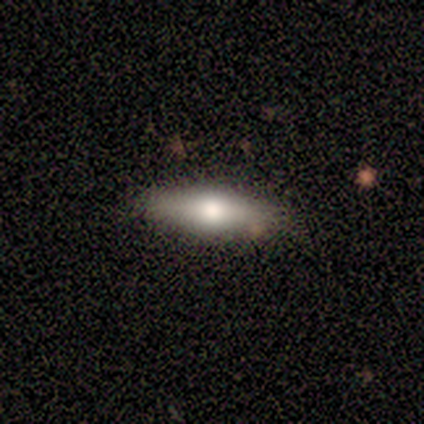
Morphology: type=featured or disk (100%); edge-on=yes (100%); edge-on bulge=none (50%, tied with rounded); merging=none (50%, tied with minor disturbance).